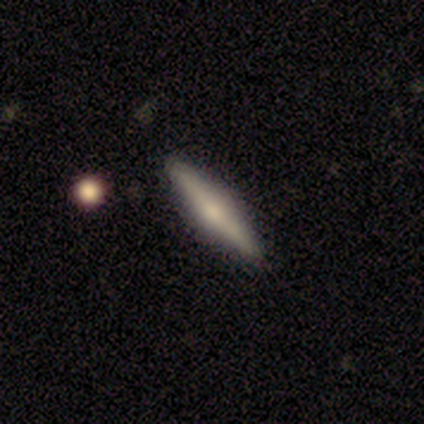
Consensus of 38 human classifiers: A featured or disk galaxy (61%) viewed edge-on (96%) with a rounded central bulge (77%). Merging: none (97%).